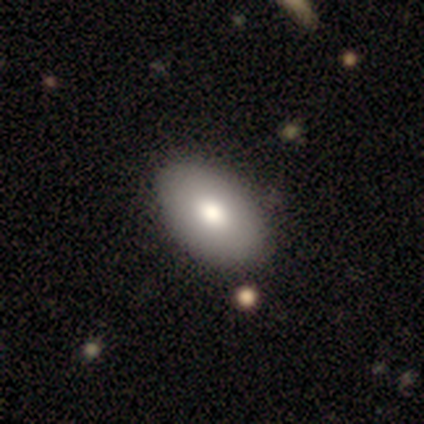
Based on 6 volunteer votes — A smooth galaxy with no disk features (67%) that is in between round and cigar-shaped (100%).

Vote fractions:
- Smooth or featured? smooth: 67% / featured or disk: 33% / star or artifact: 0%
- How rounded? in between: 100% / round: 0% / cigar-shaped: 0%
- Merging? none: 67% / minor disturbance: 17% / major disturbance: 17% / merger: 0%